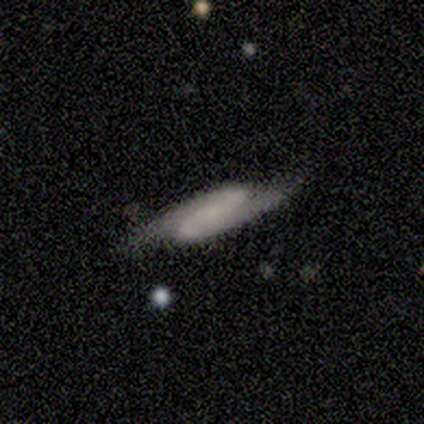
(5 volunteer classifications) A featured or disk galaxy (80%) with a strong bar (50%, tied with weak), 2 (100%) tight (50%, tied with medium) spiral arms (50%, tied with no) and no central bulge (75%).

Vote fractions:
- Smooth or featured? featured or disk: 80% / smooth: 20% / star or artifact: 0%
- Edge-on disk? no: 100% / yes: 0%
- Bar? strong: 50% (tied) / weak: 50% (tied) / no: 0%
- Spiral arms? yes: 50% (tied) / no: 50% (tied)
- Spiral winding? tight: 50% (tied) / medium: 50% (tied) / loose: 0%
- Spiral arm count? 2: 100% / 1: 0% / 3: 0% / 4: 0% / more than 4: 0% / can't tell: 0%
- Bulge size? none: 75% / small: 25% / dominant: 0% / large: 0% / moderate: 0%
- Merging? none: 60% / major disturbance: 20% / merger: 20% / minor disturbance: 0%